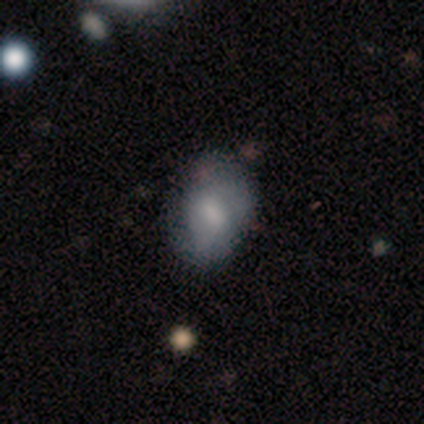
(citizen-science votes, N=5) This is likely a smooth galaxy (60%). How rounded: clearly in between (100%). Merging: likely none (60%).